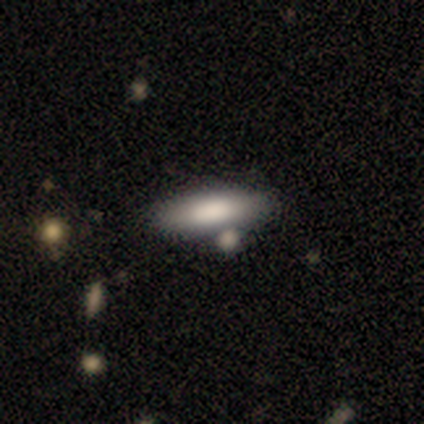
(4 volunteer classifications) A smooth galaxy with no disk features (100%) that is in between round and cigar-shaped (50%, tied with cigar-shaped). Merging: none (75%).